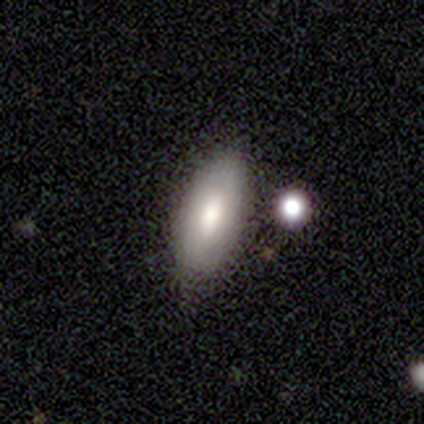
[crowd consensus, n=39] This appears to be a smooth galaxy with no disk features (67%) that is in between round and cigar-shaped (73%). Merging: none (81%).